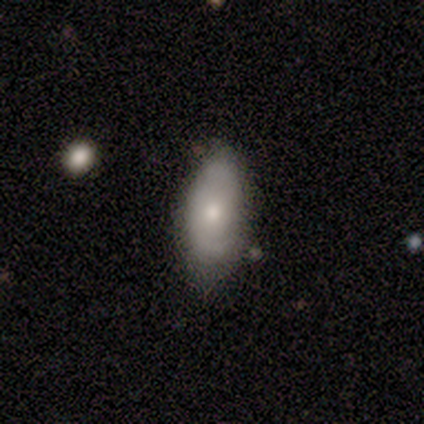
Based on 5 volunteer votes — smooth-or-featured: smooth: 80% | featured or disk: 20% | star or artifact: 0%
  how-rounded: in between: 100% | round: 0% | cigar-shaped: 0%
  merging: none: 80% | major disturbance: 20% | minor disturbance: 0% | merger: 0%